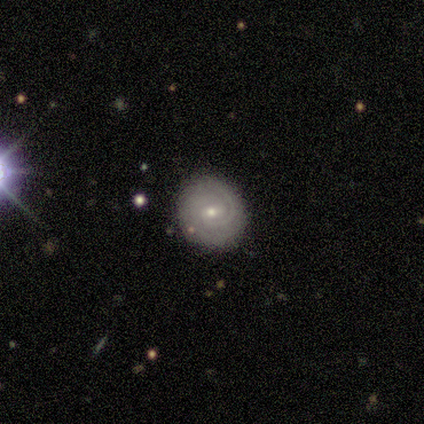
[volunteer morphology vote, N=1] smooth-or-featured: featured or disk: 100% | smooth: 0% | star or artifact: 0%
  disk-edge-on: no: 100% | yes: 0%
    bar: no: 100% | strong: 0% | weak: 0%
    has-spiral-arms: yes: 100% | no: 0%
      spiral-winding: tight: 100% | medium: 0% | loose: 0%
      spiral-arm-count: 2: 100% | 1: 0% | 3: 0% | 4: 0% | more than 4: 0% | can't tell: 0%
    bulge-size: moderate: 100% | dominant: 0% | large: 0% | small: 0% | none: 0%
  merging: none: 100% | minor disturbance: 0% | major disturbance: 0% | merger: 0%